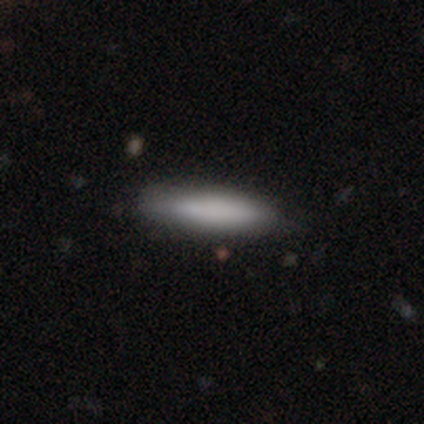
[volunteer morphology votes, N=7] This appears to be a smooth galaxy with no disk features (86%) that is cigar-shaped (83%). Merging: none (71%).